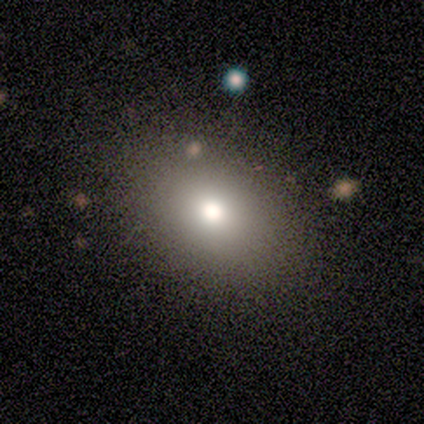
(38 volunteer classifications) smooth 82%, star or artifact 11%, featured or disk 8%. Down the decision tree: how rounded — in between (71%); merging — none (56%).